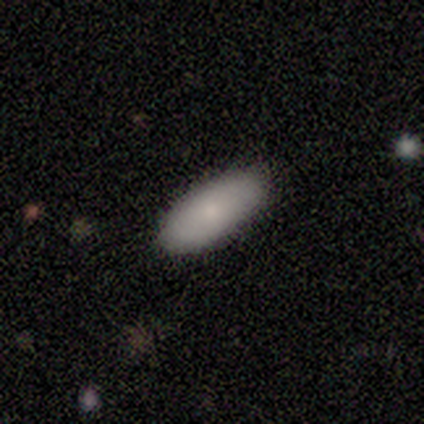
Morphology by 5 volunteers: A smooth galaxy with no disk features (80%) that is in between round and cigar-shaped (100%).

Vote fractions:
- Smooth or featured? smooth: 80% / featured or disk: 20% / star or artifact: 0%
- How rounded? in between: 100% / round: 0% / cigar-shaped: 0%
- Merging? none: 100% / minor disturbance: 0% / major disturbance: 0% / merger: 0%